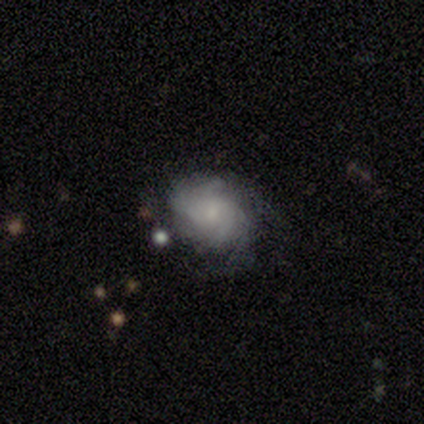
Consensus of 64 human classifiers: A featured or disk galaxy (75%) with no bar (92%), tight (55%) spiral arms (88%) and a small central bulge (56%).

Vote fractions:
- Smooth or featured? featured or disk: 75% / smooth: 19% / star or artifact: 6%
- Edge-on disk? no: 100% / yes: 0%
- Bar? no: 92% / weak: 8% / strong: 0%
- Spiral arms? yes: 88% / no: 12%
- Spiral winding? tight: 55% / medium: 31% / loose: 14%
- Spiral arm count? can't tell: 52% / 3: 21% / 2: 12% / 4: 7% / more than 4: 5% / 1: 2%
- Bulge size? small: 56% / moderate: 31% / none: 12% / dominant: 0% / large: 0%
- Merging? none: 50% / minor disturbance: 42% / major disturbance: 5% / merger: 3%